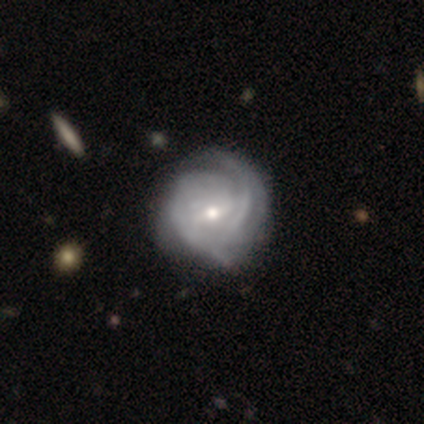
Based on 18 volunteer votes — Morphology: type=featured or disk (78%); edge-on=no (100%); bar=weak (64%); spiral arms=yes (93%); winding=tight (46%, tied with medium); arm count=2 (62%); bulge=moderate (50%); merging=none (50%).